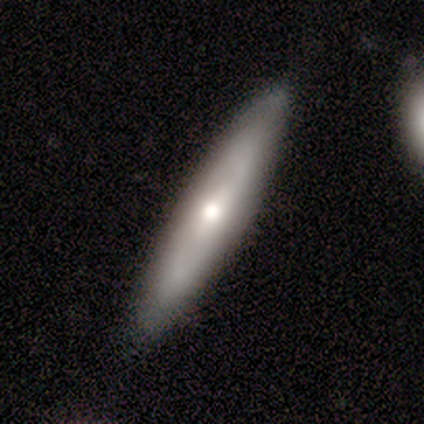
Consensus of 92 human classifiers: This appears to be a featured or disk galaxy (50%) viewed edge-on (65%) with a rounded central bulge (87%). Merging: none (89%).